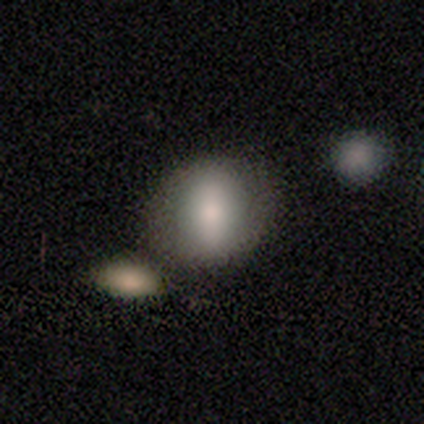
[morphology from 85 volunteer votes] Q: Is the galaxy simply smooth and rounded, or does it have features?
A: smooth — 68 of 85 (80%).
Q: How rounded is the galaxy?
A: round — 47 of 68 (69%).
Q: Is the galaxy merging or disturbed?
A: none — 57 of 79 (72%).